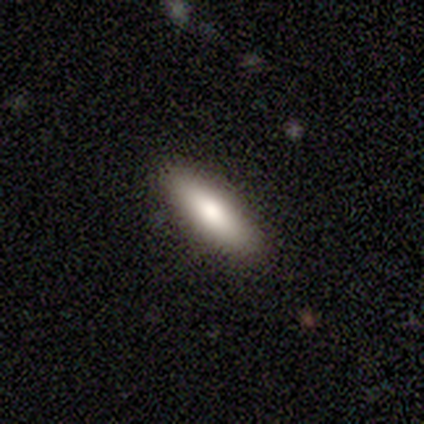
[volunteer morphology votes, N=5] Overall: smooth (80%). How rounded: cigar-shaped (75%). Merging: none (80%).